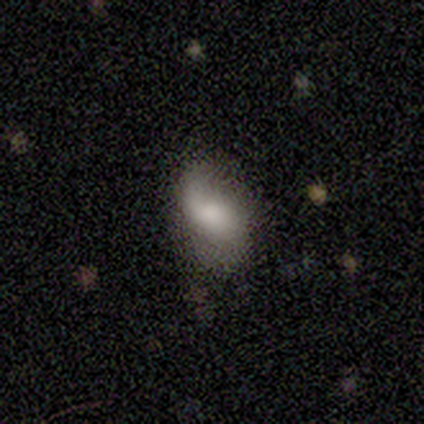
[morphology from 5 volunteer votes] Volunteers were most divided on "bulge size" (3-way tie): large: 33%, small: 33%, none: 33%, dominant: 0%, moderate: 0%. More confident: edge-on disk — no (100%); bar — no (100%); spiral arms — no (67%); smooth or featured — featured or disk (60%); merging — none (60%).